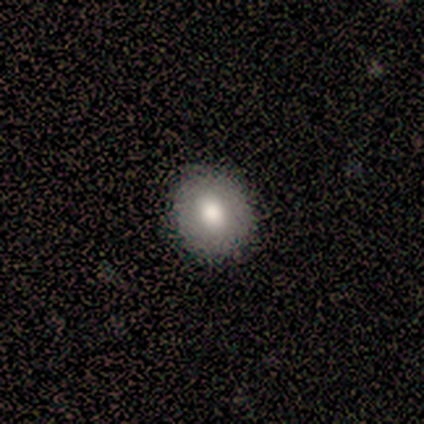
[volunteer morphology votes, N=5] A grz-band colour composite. It shows a smooth galaxy with no disk features (80%) that is round (100%). Merging: none (80%).